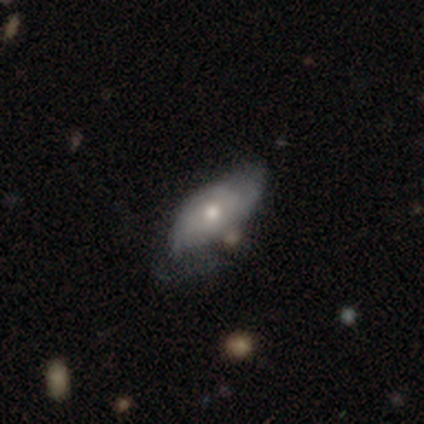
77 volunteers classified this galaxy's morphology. Smooth or featured? featured or disk (52%)
Edge-on disk? no (98%)
Bar? no (95%)
Spiral arms? yes (56%)
Spiral winding? medium (45%)
Spiral arm count? can't tell (45%)
Bulge size? moderate (62%)
Merging? none (28%, tied with minor disturbance)